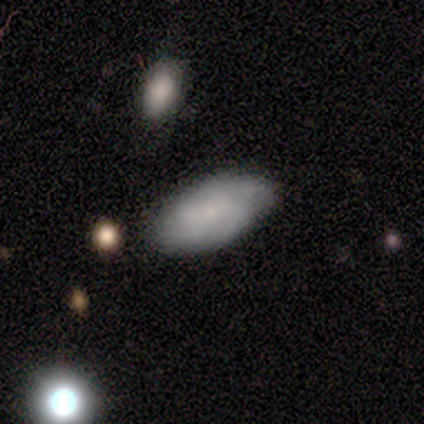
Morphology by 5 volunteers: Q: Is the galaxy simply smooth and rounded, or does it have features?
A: featured or disk — 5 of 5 (100%).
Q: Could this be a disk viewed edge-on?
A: no — 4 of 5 (80%).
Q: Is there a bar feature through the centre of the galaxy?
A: no — 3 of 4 (75%).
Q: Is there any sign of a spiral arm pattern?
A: yes — 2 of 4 (50%, tied with no).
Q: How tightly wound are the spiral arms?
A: tight — 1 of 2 (50%, tied with medium).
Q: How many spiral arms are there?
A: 4 — 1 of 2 (50%, tied with can't tell).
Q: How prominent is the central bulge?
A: small — 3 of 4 (75%).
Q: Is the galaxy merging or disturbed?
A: none — 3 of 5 (60%).